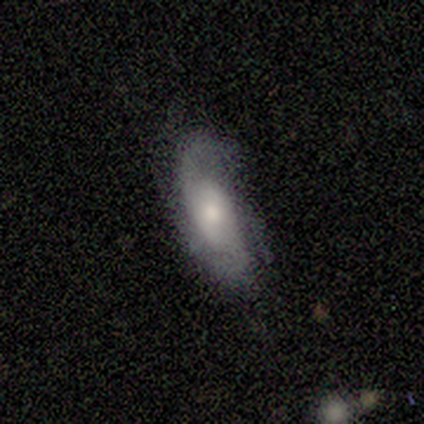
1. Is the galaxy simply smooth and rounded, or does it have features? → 77% featured or disk, 15% smooth, 8% star or artifact.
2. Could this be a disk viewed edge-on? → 90% no, 10% yes.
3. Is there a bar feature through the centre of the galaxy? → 56% no, 33% weak, 11% strong.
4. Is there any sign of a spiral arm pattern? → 89% yes, 11% no.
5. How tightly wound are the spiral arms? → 38% medium (tied), 38% loose (tied), 25% tight.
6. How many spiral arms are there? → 50% can't tell, 38% 2, 12% 3, 0% 1, 0% 4, 0% more than 4.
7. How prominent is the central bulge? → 67% moderate, 22% small, 11% large, 0% dominant, 0% none.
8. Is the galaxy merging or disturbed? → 67% none, 17% minor disturbance, 17% major disturbance, 0% merger.